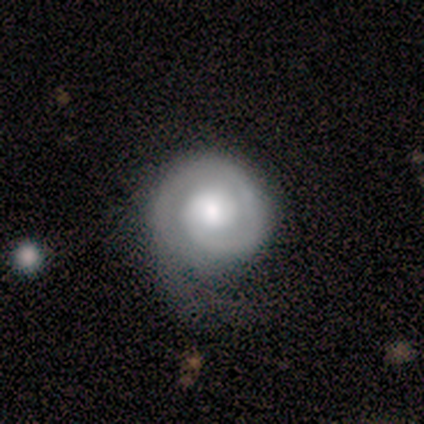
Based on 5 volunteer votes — Smooth or featured? 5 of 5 (100%) said featured or disk. Edge-on disk? 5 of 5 (100%) said no. Bar? 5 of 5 (100%) said no. Spiral arms? 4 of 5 (80%) said yes. Spiral winding? 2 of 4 (50%) said tight. Spiral arm count? 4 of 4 (100%) said 1. Bulge size? 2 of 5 (40%) said large. Merging? 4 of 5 (80%) said none.